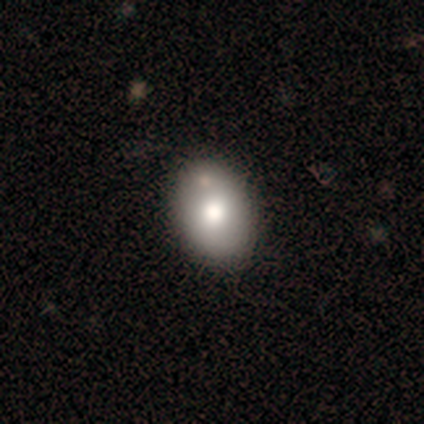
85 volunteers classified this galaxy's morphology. Smooth or featured? 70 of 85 (82%) said smooth. How rounded? 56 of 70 (80%) said in between. Merging? 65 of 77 (84%) said none.